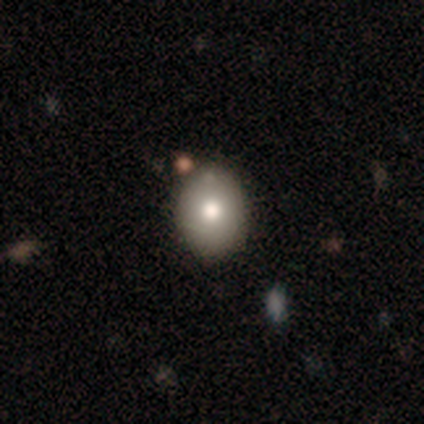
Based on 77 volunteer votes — This is likely a smooth galaxy (75%). How rounded: possibly round (52%). Merging: possibly none (49%).